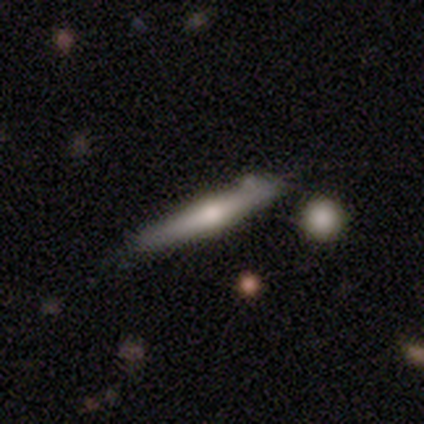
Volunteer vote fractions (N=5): Smooth or featured? 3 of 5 (60%) said smooth. How rounded? 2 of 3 (67%) said cigar-shaped. Merging? 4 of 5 (80%) said none.